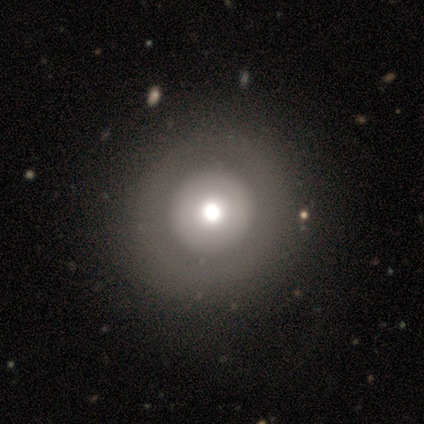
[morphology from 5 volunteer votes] Volunteers were most divided on "smooth or featured" (2-way tie): smooth: 40%, featured or disk: 40%, star or artifact: 20%. More confident: how rounded — round (100%); merging — none (100%).